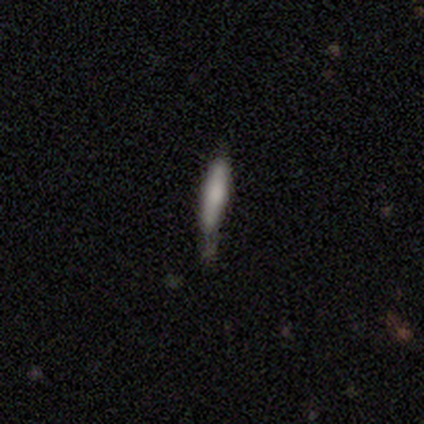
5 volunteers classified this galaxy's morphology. Smooth or featured?
  - featured or disk: 60% *
  - smooth: 40%
  - star or artifact: 0%
Edge-on disk?
  - yes: 100% *
  - no: 0%
Edge-on bulge?
  - rounded: 67% *
  - boxy: 33%
  - none: 0%
Merging?
  - none: 40% * (tied)
  - major disturbance: 40% * (tied)
  - minor disturbance: 20%
  - merger: 0%